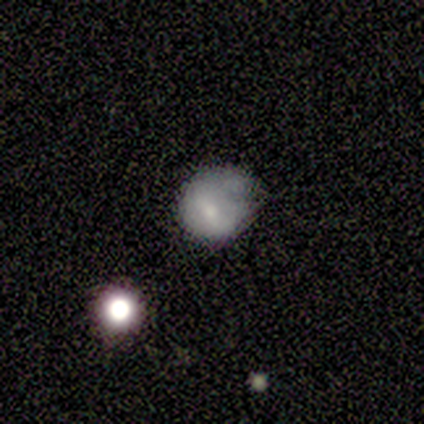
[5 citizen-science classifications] Q: Smooth or featured?
A: featured or disk (60%); runner-up: smooth (40%)
Q: Edge-on disk?
A: no (100%)
Q: Bar?
A: no (67%); runner-up: weak (33%)
Q: Spiral arms?
A: no (100%)
Q: Bulge size?
A: moderate (33%); tied with: small (33%); none (33%)
Q: Merging?
A: none (60%); runner-up: minor disturbance (40%)